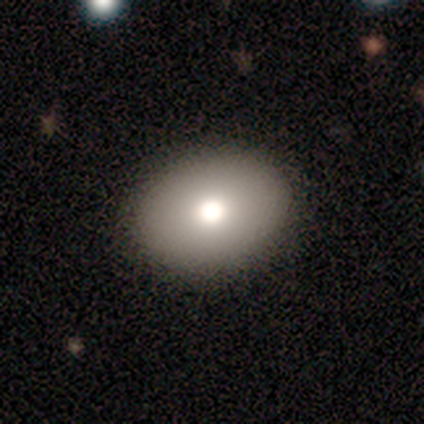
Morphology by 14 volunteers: smooth-or-featured: smooth: 71% | featured or disk: 14% | star or artifact: 14%
  how-rounded: in between: 90% | round: 10% | cigar-shaped: 0%
  merging: none: 83% | minor disturbance: 8% | merger: 8% | major disturbance: 0%